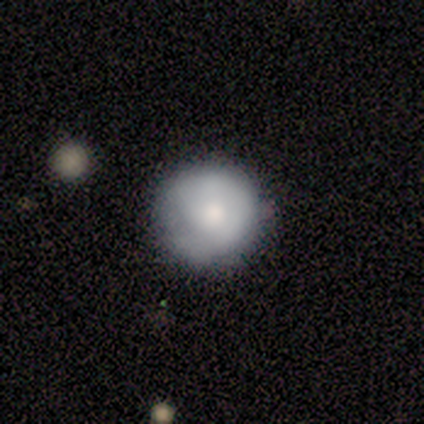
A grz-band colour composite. It shows a featured or disk galaxy (60%) with no bar (100%), no spiral arms (67%) and a moderate central bulge (100%). Merging: none (50%).